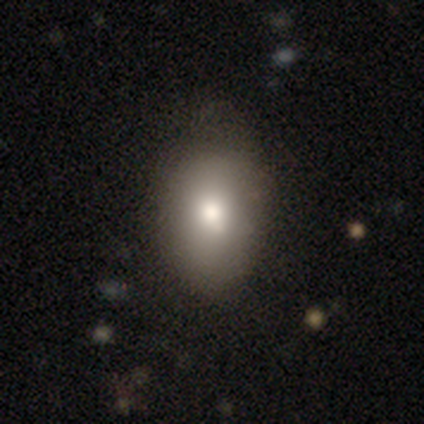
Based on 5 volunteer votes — Smooth or featured? smooth (60%)
How rounded? in between (67%)
Merging? none (75%)